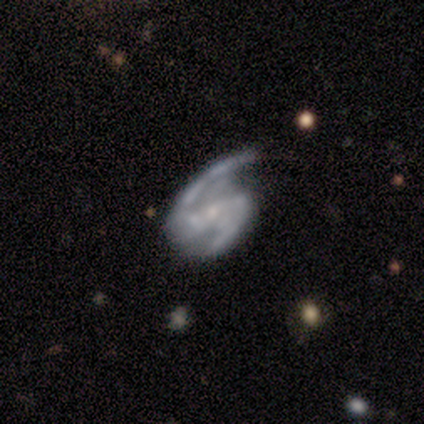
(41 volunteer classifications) Q: Smooth or featured?
A: featured or disk (93%); runner-up: star or artifact (7%)
Q: Edge-on disk?
A: no (100%)
Q: Bar?
A: weak (45%); runner-up: strong (32%)
Q: Spiral arms?
A: yes (100%)
Q: Spiral winding?
A: medium (50%); runner-up: loose (39%)
Q: Spiral arm count?
A: 2 (97%); runner-up: can't tell (3%)
Q: Bulge size?
A: small (79%); runner-up: moderate (11%)
Q: Merging?
A: minor disturbance (42%); runner-up: none (39%)